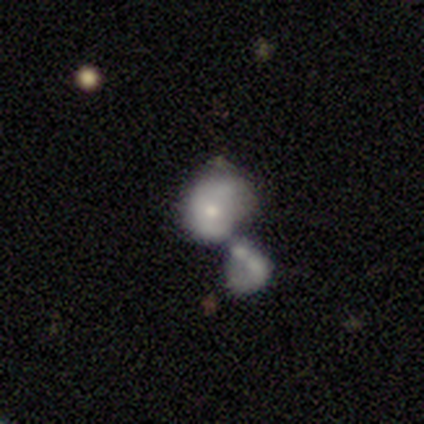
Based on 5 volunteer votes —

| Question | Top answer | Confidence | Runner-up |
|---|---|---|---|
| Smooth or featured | featured or disk | 60% | smooth (40%) |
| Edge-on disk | no | 100% | — |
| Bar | no | 67% | weak (33%) |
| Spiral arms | no | 100% | — |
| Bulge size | moderate | 67% | small (33%) |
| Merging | merger | 80% | major disturbance (20%) |